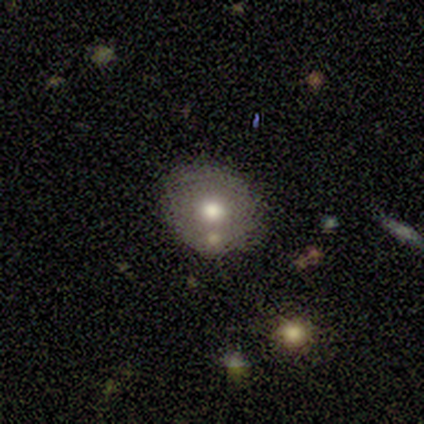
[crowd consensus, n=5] Volunteers were most divided on "merging": minor disturbance: 75%, none: 25%, major disturbance: 0%, merger: 0%. More confident: how rounded — round (100%); smooth or featured — smooth (80%).